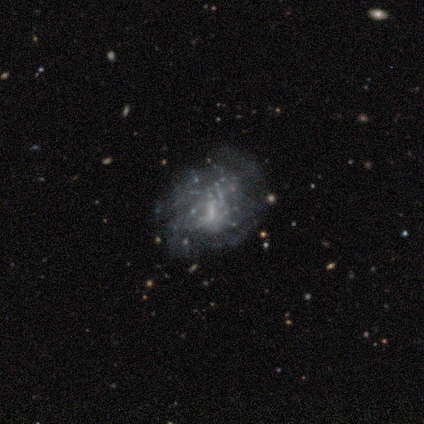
This appears to be a featured or disk galaxy (100%) with no bar (60%), no spiral arms (80%) and a small central bulge (60%). Merging: none (60%).